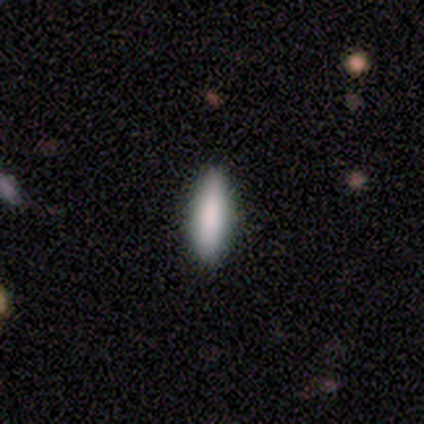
Q: Smooth or featured?
A: smooth (87%); runner-up: star or artifact (10%)
Q: How rounded?
A: in between (56%); runner-up: cigar-shaped (44%)
Q: Merging?
A: none (91%); runner-up: minor disturbance (9%)